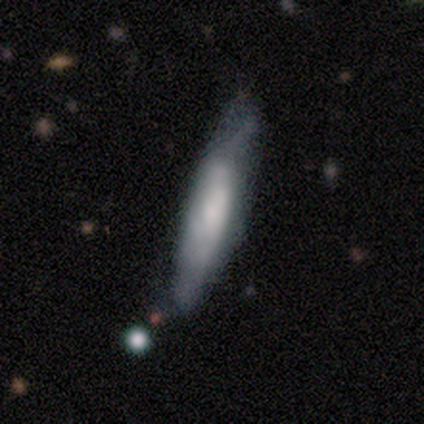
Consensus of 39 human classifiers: This appears to be a smooth galaxy with no disk features (74%) that is cigar-shaped (72%). Merging: none (62%).